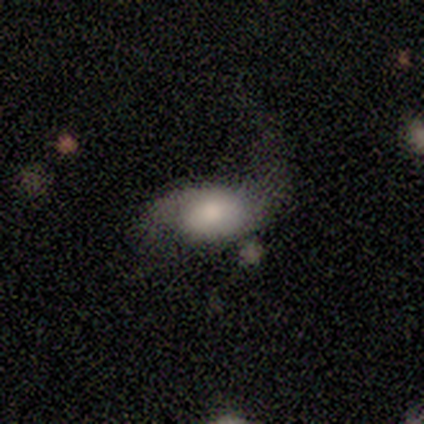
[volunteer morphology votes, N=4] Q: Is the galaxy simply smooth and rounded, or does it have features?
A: smooth — 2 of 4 (50%, tied with featured or disk).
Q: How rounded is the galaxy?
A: in between — 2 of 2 (100%).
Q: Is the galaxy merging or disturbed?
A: major disturbance — 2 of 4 (50%).